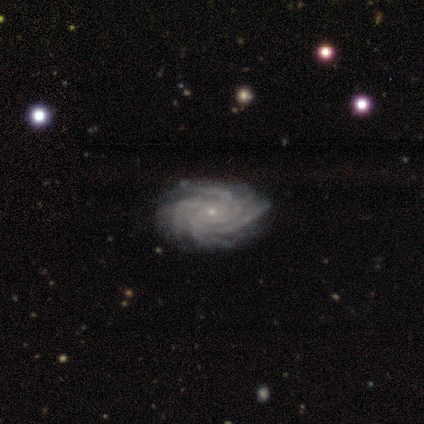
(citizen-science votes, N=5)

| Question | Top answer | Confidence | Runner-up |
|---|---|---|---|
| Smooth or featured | featured or disk | 80% | star or artifact (20%) |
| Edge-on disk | no | 100% | — |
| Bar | no | 100% | — |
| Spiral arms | yes | 100% | — |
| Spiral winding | tight | 75% | medium (25%) |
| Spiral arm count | more than 4 | 75% | can't tell (25%) |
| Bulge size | small | 100% | — |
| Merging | none | 100% | — |